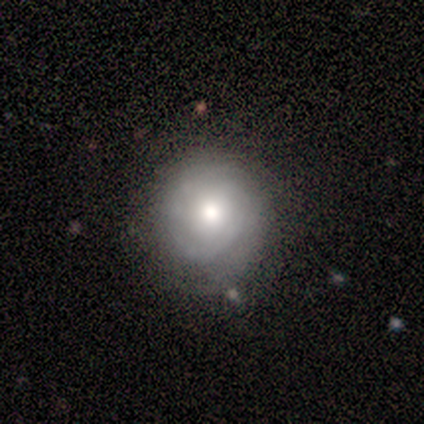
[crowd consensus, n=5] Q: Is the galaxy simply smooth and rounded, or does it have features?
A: featured or disk — 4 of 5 (80%).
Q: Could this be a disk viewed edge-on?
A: no — 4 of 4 (100%).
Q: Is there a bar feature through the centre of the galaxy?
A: no — 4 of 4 (100%).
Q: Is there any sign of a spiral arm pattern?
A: yes — 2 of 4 (50%, tied with no).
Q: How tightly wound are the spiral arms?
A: tight — 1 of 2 (50%, tied with medium).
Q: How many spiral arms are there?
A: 2 — 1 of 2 (50%, tied with can't tell).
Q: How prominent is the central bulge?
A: moderate — 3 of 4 (75%).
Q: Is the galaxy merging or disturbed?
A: none — 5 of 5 (100%).